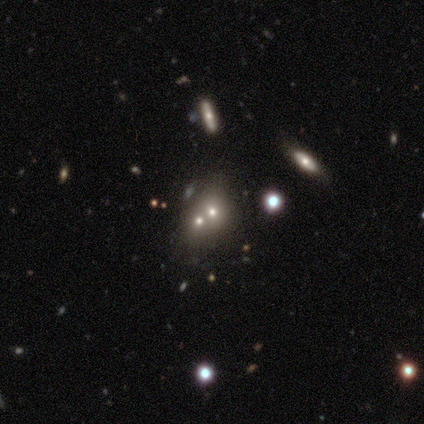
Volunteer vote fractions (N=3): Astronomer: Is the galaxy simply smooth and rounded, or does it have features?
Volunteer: smooth — 67%.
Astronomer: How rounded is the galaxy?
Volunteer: round — 100%.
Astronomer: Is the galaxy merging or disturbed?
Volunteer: none — 50%, tied with merger at 50%.